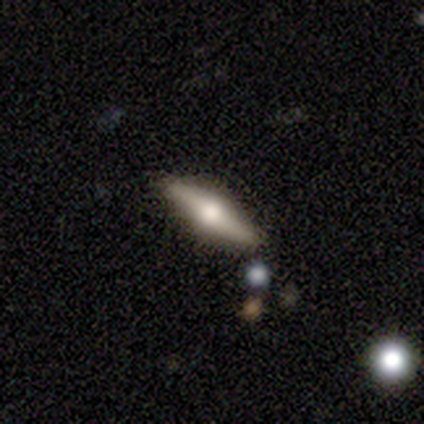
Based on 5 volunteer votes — smooth-or-featured: smooth: 40% (tied) | featured or disk: 40% (tied) | star or artifact: 20%
  how-rounded: in between: 50% (tied) | cigar-shaped: 50% (tied) | round: 0%
  merging: none: 100% | minor disturbance: 0% | major disturbance: 0% | merger: 0%